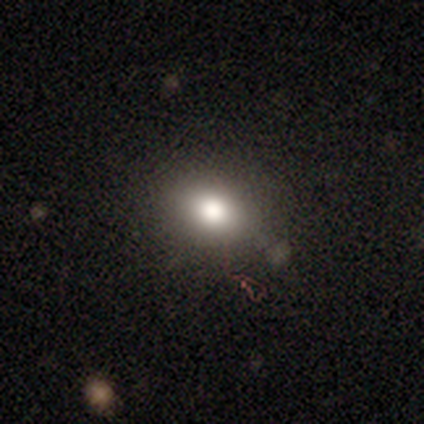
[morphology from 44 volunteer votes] This appears to be a smooth galaxy with no disk features (75%) that is round (52%). Merging: none (72%).